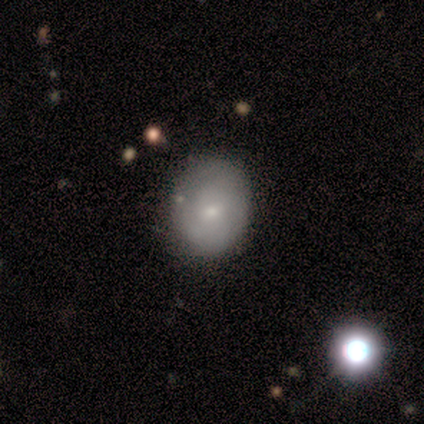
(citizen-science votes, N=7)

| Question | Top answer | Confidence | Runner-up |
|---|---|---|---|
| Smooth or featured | smooth | 57% | featured or disk (29%) |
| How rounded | round | 75% | in between (25%) |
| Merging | none | 83% | minor disturbance (17%) |